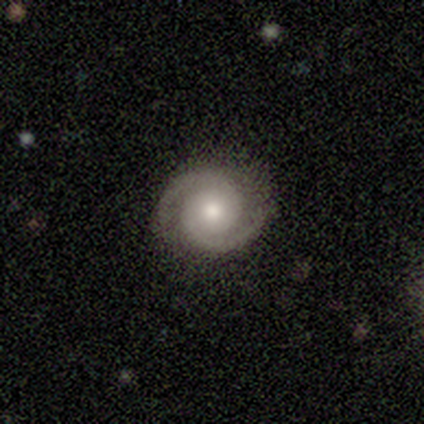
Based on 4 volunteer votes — This appears to be a featured or disk galaxy (100%) with no bar (50%), 2 (100%) tight (100%) spiral arms (100%) and a moderate central bulge (75%). Merging: none (100%).